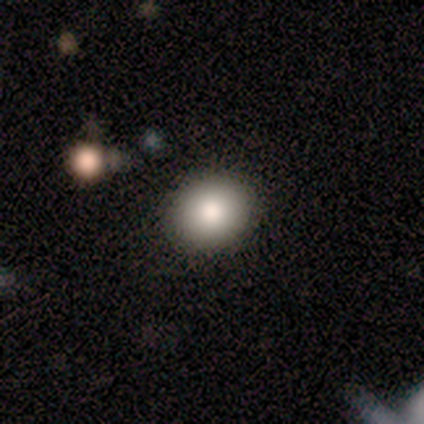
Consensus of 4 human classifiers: A smooth galaxy with no disk features (75%) that is in between round and cigar-shaped (67%).

Vote fractions:
- Smooth or featured? smooth: 75% / star or artifact: 25% / featured or disk: 0%
- How rounded? in between: 67% / round: 33% / cigar-shaped: 0%
- Merging? none: 100% / minor disturbance: 0% / major disturbance: 0% / merger: 0%